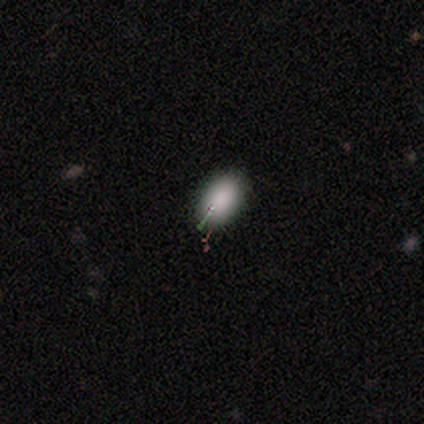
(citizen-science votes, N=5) Smooth or featured: smooth — 100%
How rounded: in between — 80% (round — 20%)
Merging: none — 80% (minor disturbance — 20%)